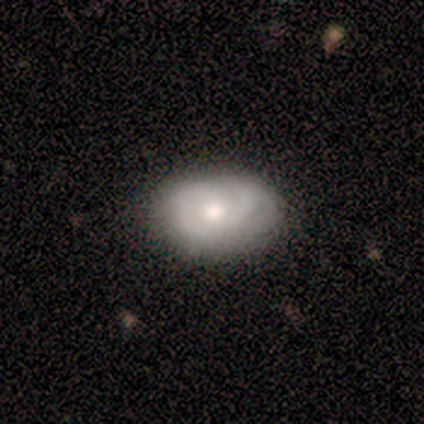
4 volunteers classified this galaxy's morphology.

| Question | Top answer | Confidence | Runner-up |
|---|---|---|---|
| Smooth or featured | featured or disk | 75% | smooth (25%) |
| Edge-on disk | no | 100% | — |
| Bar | no | 67% | weak (33%) |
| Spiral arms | yes | 67% | no (33%) |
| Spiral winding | tight | 100% | — |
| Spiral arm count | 2 | 50% | tied: can't tell (50%) |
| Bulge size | moderate | 67% | small (33%) |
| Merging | minor disturbance | 75% | none (25%) |